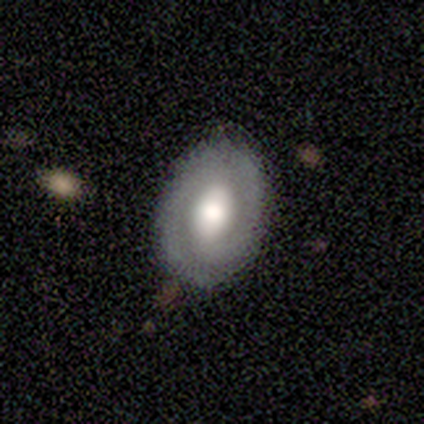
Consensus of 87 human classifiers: Overall: featured or disk (54%; smooth 43%). Edge-on disk: no (100%). Bar: no (40%; strong 36%). Spiral arms: yes (74%). Spiral arm count: 2 (80%). Spiral winding: tight (66%). Bulge size: large (60%; moderate 26%). Merging: none (83%).